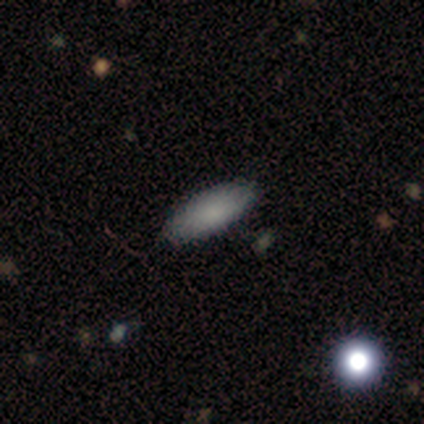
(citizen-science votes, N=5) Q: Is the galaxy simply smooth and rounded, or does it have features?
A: smooth — 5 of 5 (100%).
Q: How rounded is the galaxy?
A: cigar-shaped — 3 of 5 (60%).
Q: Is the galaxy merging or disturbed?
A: none — 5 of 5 (100%).